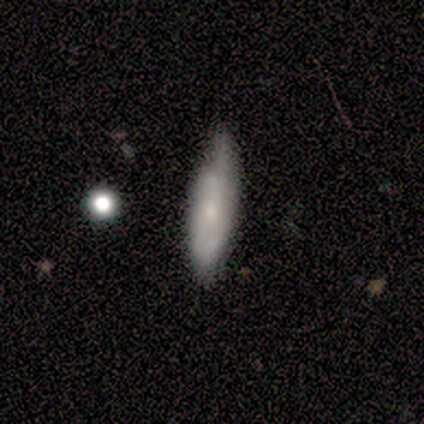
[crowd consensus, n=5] Smooth or featured?
  - featured or disk: 60% *
  - smooth: 40%
  - star or artifact: 0%
Edge-on disk?
  - yes: 67% *
  - no: 33%
Edge-on bulge?
  - rounded: 100% *
  - boxy: 0%
  - none: 0%
Merging?
  - none: 80% *
  - minor disturbance: 20%
  - major disturbance: 0%
  - merger: 0%